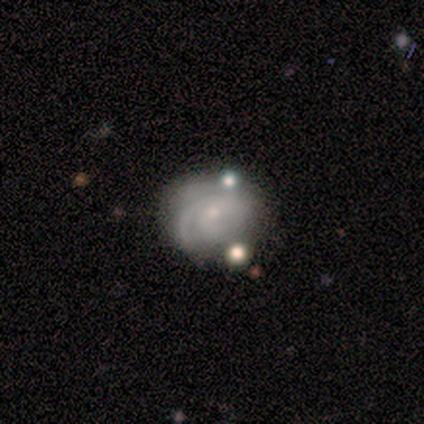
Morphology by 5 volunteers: smooth_or_featured: star or artifact (p=0.60) [alt: smooth p=0.20]